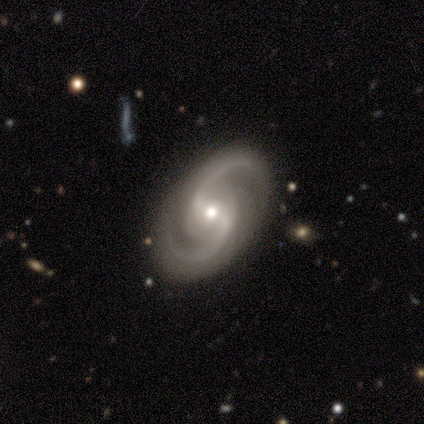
Smooth or featured?
  - featured or disk: 95% *
  - smooth: 5%
  - star or artifact: 0%
Edge-on disk?
  - no: 97% *
  - yes: 3%
Bar?
  - weak: 63% *
  - strong: 20%
  - no: 17%
Spiral arms?
  - yes: 97% *
  - no: 3%
Spiral winding?
  - medium: 50% *
  - loose: 35%
  - tight: 15%
Spiral arm count?
  - 2: 100% *
  - 1: 0%
  - 3: 0%
  - 4: 0%
  - more than 4: 0%
  - can't tell: 0%
Bulge size?
  - moderate: 57% *
  - small: 31%
  - large: 9%
  - none: 3%
  - dominant: 0%
Merging?
  - none: 87% *
  - major disturbance: 8%
  - minor disturbance: 3%
  - merger: 3%